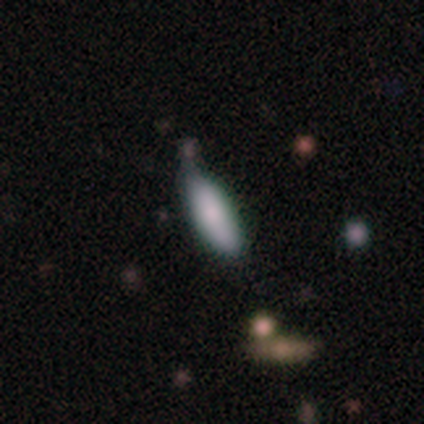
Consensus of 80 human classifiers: Smooth or featured? smooth (86%)
How rounded? in between (62%)
Merging? none (36%)